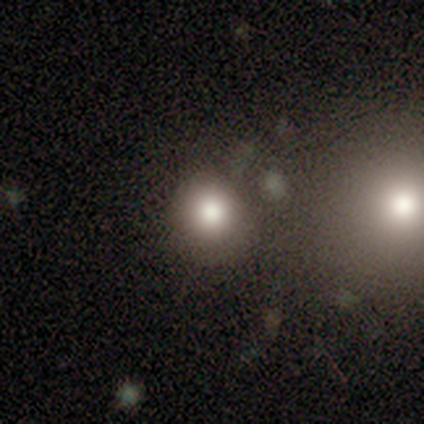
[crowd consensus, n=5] Smooth or featured?
  - smooth: 80% *
  - star or artifact: 20%
  - featured or disk: 0%
How rounded?
  - round: 100% *
  - in between: 0%
  - cigar-shaped: 0%
Merging?
  - none: 100% *
  - minor disturbance: 0%
  - major disturbance: 0%
  - merger: 0%